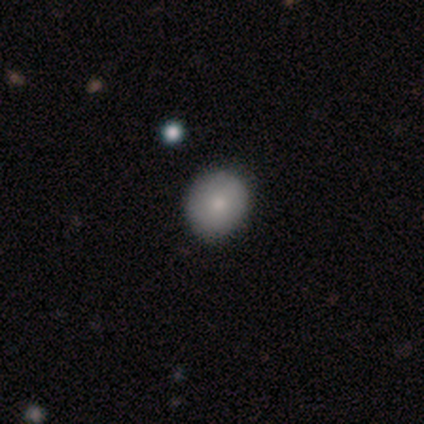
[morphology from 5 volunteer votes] Smooth or featured: smooth — 100%
How rounded: round — 100%
Merging: none — 100%